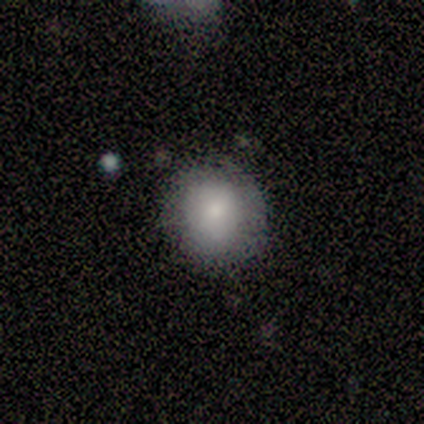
This appears to be a smooth galaxy with no disk features (67%) that is round (100%). Merging: none (100%).